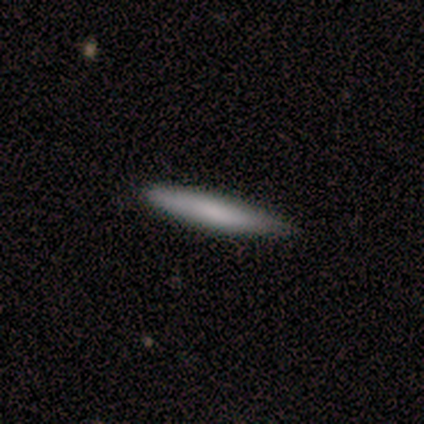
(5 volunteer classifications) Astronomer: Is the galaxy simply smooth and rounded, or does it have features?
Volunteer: smooth — 100%.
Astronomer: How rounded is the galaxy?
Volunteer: cigar-shaped — 100%.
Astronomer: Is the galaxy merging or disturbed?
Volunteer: minor disturbance — 80%.